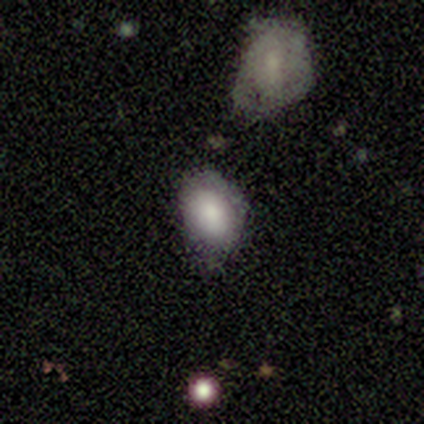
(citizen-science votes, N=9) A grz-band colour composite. It shows a smooth galaxy with no disk features (89%) that is in between round and cigar-shaped (75%). Merging: none (67%).